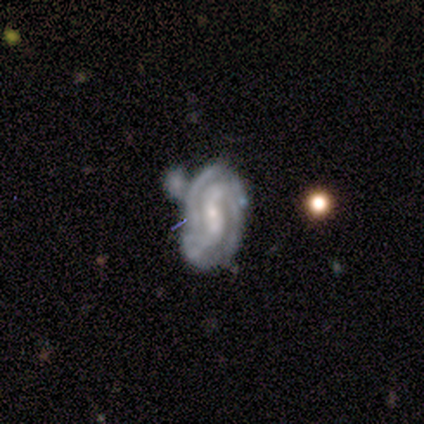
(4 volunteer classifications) Smooth or featured? 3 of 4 (75%) said featured or disk. Edge-on disk? 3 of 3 (100%) said no. Bar? 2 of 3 (67%) said weak. Spiral arms? 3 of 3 (100%) said yes. Spiral winding? 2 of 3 (67%) said medium. Spiral arm count? 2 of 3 (67%) said 2. Bulge size? 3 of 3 (100%) said small. Merging? 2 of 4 (50%) said major disturbance.